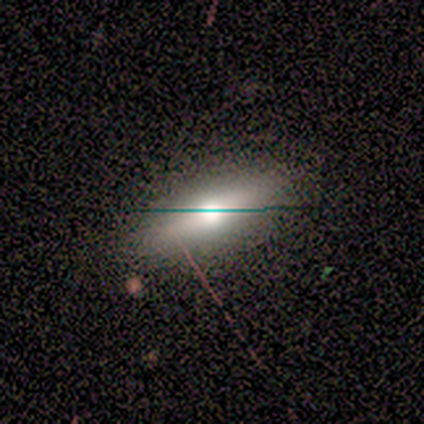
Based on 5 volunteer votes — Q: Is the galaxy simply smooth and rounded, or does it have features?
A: smooth — 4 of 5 (80%).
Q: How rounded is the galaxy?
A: in between — 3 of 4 (75%).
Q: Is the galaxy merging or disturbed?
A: none — 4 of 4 (100%).